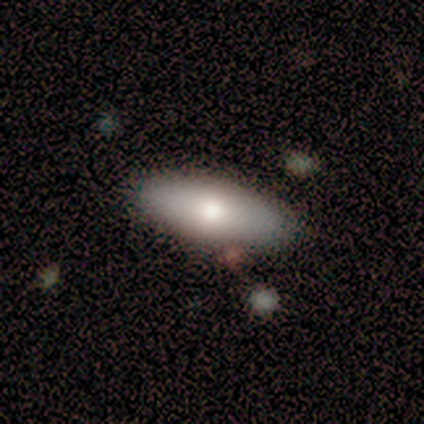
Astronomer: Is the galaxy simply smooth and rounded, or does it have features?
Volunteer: smooth — 79%.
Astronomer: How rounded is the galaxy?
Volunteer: in between — 73%.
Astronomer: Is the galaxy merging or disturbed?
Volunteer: none — 62%.